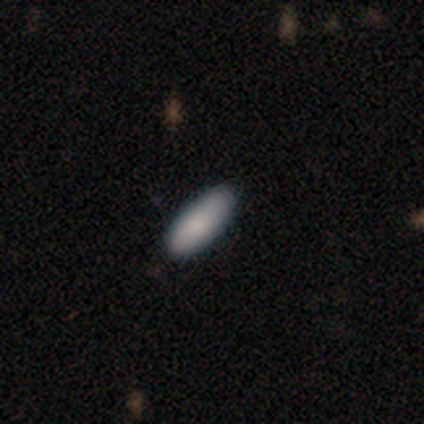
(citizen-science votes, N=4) Q: Smooth or featured?
A: smooth (100%)
Q: How rounded?
A: in between (100%)
Q: Merging?
A: none (75%); runner-up: minor disturbance (25%)